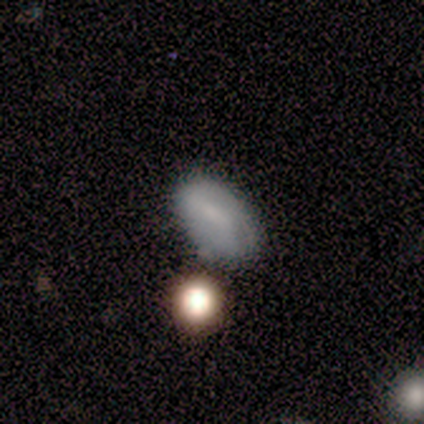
Overall: smooth (57%; featured or disk 43%). How rounded: round (50%, tied with in between). Merging: none (86%).